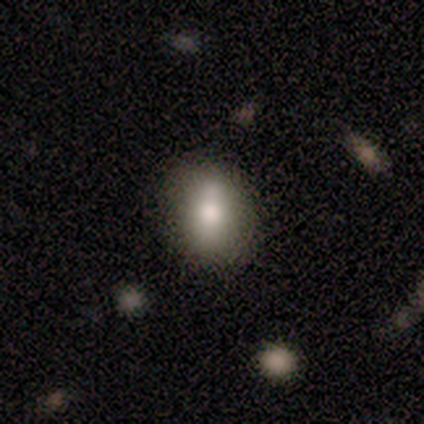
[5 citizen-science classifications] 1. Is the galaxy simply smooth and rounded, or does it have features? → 100% smooth, 0% featured or disk, 0% star or artifact.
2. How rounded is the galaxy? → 60% in between, 40% round, 0% cigar-shaped.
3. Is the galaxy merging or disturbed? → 80% none, 20% minor disturbance, 0% major disturbance, 0% merger.